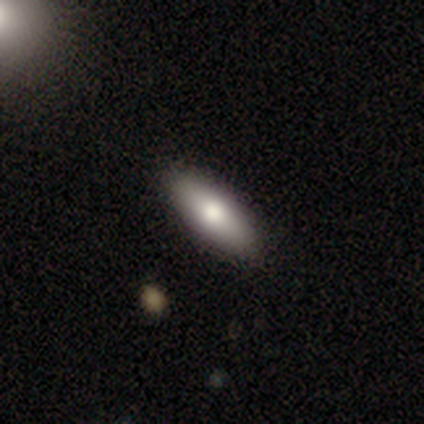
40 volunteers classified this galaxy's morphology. Q: Smooth or featured?
A: smooth (68%); runner-up: featured or disk (22%)
Q: How rounded?
A: in between (70%); runner-up: cigar-shaped (30%)
Q: Merging?
A: none (86%); runner-up: minor disturbance (14%)